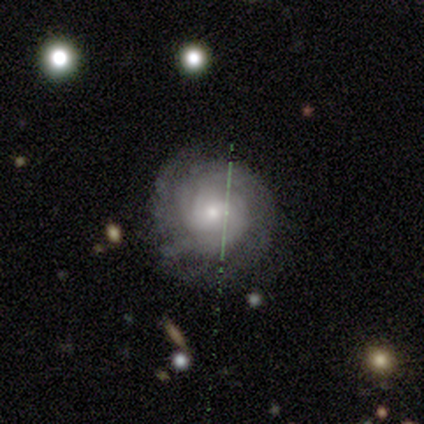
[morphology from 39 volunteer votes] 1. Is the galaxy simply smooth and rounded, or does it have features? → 79% featured or disk, 10% smooth, 10% star or artifact.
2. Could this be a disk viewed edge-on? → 94% no, 6% yes.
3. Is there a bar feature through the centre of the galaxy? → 76% no, 17% weak, 7% strong.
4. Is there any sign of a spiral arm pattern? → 93% yes, 7% no.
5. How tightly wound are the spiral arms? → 70% tight, 30% medium, 0% loose.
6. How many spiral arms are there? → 56% can't tell, 22% 3, 11% more than 4, 7% 4, 4% 2, 0% 1.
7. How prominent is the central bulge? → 52% moderate, 45% small, 3% none, 0% dominant, 0% large.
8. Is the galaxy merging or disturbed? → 89% none, 11% minor disturbance, 0% major disturbance, 0% merger.